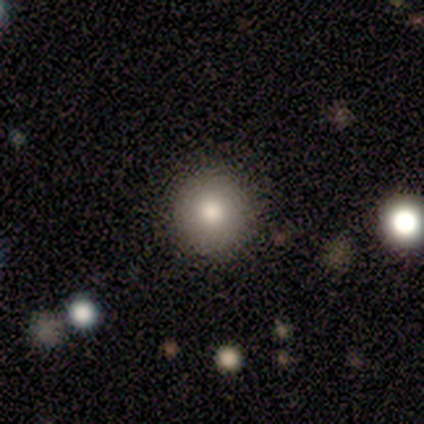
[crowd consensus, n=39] Smooth or featured?
  - smooth: 92% *
  - featured or disk: 8%
  - star or artifact: 0%
How rounded?
  - round: 94% *
  - in between: 6%
  - cigar-shaped: 0%
Merging?
  - none: 67% *
  - minor disturbance: 3%
  - merger: 3%
  - major disturbance: 0%